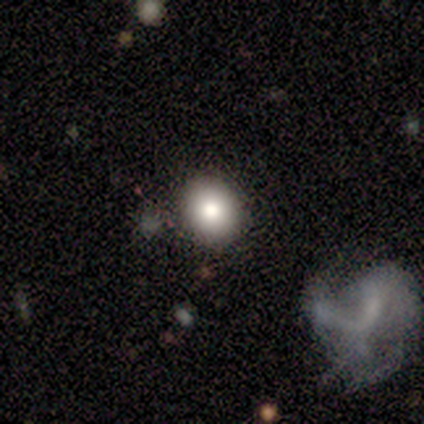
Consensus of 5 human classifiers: Q: Smooth or featured?
A: smooth (60%); runner-up: star or artifact (40%)
Q: How rounded?
A: round (67%); runner-up: in between (33%)
Q: Merging?
A: none (100%)